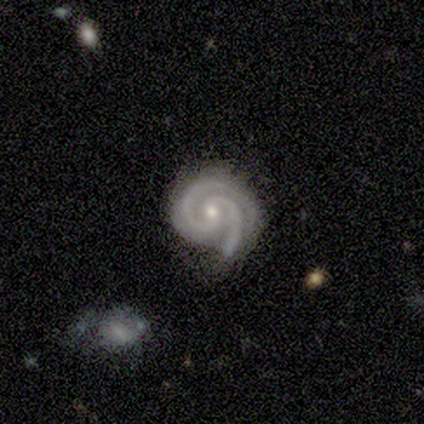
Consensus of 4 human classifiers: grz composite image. It shows a featured or disk galaxy (100%) with no bar (100%), 2 (75%) tight (50%, tied with medium) spiral arms (100%) and a moderate central bulge (50%, tied with small). Merging: none (75%).